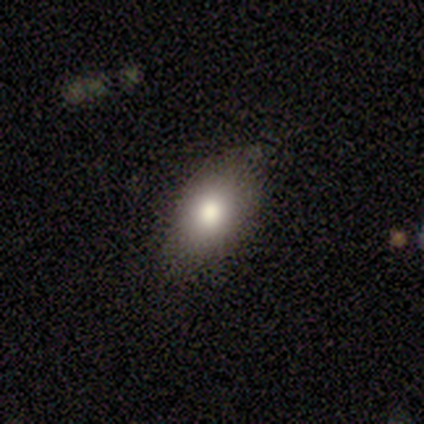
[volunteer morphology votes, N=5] type=featured or disk (60%); edge-on=no (100%); bar=no (67%); spiral arms=no (100%); bulge=moderate (67%); merging=none (100%).